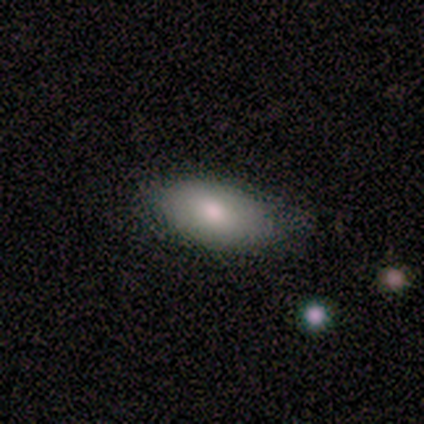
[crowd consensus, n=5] Q: Smooth or featured?
A: smooth (80%); runner-up: featured or disk (20%)
Q: How rounded?
A: in between (75%); runner-up: round (25%)
Q: Merging?
A: none (60%); runner-up: minor disturbance (20%)